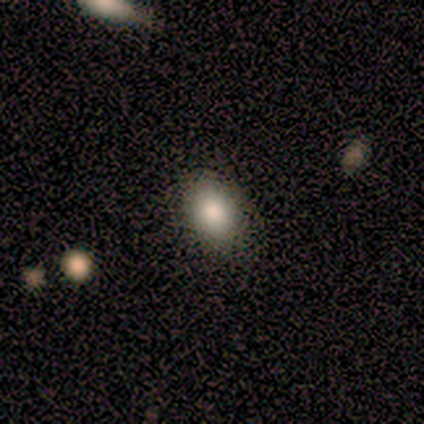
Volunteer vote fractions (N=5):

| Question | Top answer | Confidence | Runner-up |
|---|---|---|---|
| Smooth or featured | smooth | 80% | star or artifact (20%) |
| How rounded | in between | 100% | — |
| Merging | none | 75% | minor disturbance (25%) |